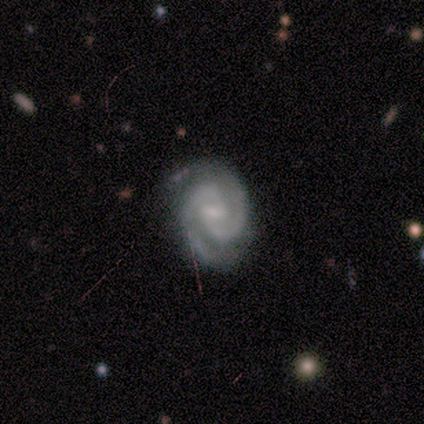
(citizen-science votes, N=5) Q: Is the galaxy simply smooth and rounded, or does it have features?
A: featured or disk — 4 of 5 (80%).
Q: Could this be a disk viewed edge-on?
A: no — 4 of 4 (100%).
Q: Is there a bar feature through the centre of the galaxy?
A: weak — 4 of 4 (100%).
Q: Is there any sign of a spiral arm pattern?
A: yes — 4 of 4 (100%).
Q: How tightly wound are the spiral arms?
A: tight — 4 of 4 (100%).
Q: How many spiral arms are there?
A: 2 — 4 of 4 (100%).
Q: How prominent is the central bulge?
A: small — 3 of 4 (75%).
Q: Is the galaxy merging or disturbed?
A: none — 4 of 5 (80%).